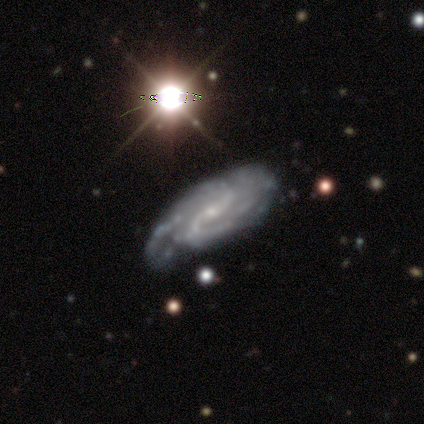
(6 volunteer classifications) Overall: featured or disk (67%). Edge-on disk: no (100%). Bar: strong (50%; weak 25%). Spiral arms: yes (100%). Spiral arm count: 2 (50%; 3 25%). Spiral winding: tight (50%; medium 25%). Bulge size: small (100%). Merging: none (80%).